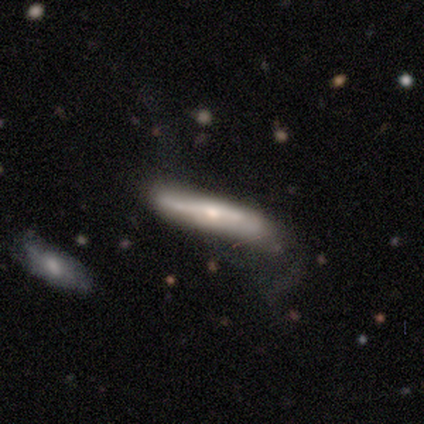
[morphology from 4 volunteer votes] Volunteers were most divided on "smooth or featured" (2-way tie): smooth: 50%, featured or disk: 50%, star or artifact: 0%. More confident: how rounded — cigar-shaped (100%); merging — none (75%).